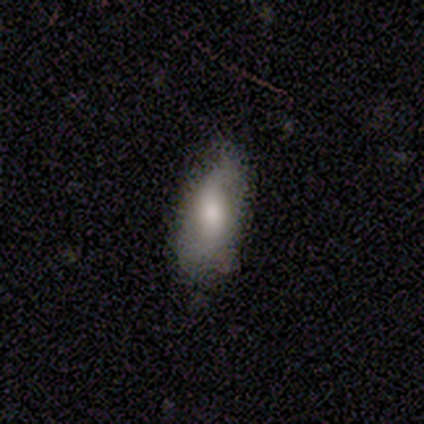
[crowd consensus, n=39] smooth_or_featured: smooth (p=0.62) [alt: featured or disk p=0.36]
how_rounded: in between (p=0.79) [alt: cigar-shaped p=0.12]
merging: none (p=0.68) [alt: minor disturbance p=0.26]